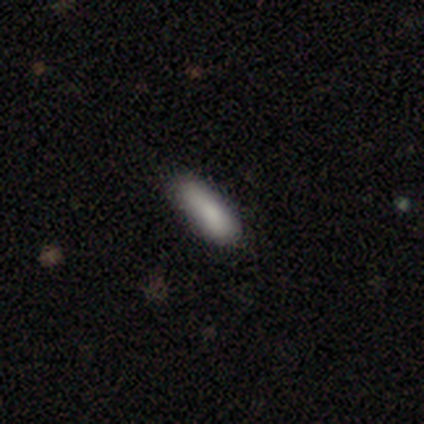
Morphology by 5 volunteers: This appears to be a smooth galaxy with no disk features (100%) that is in between round and cigar-shaped (80%). Merging: none (100%).